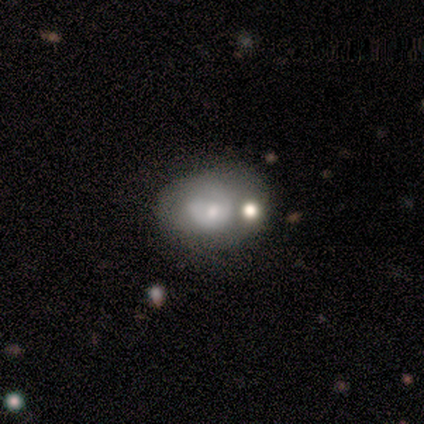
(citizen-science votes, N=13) Smooth or featured?
  - smooth: 46% * (tied)
  - featured or disk: 46% * (tied)
  - star or artifact: 8%
How rounded?
  - in between: 83% *
  - round: 17%
  - cigar-shaped: 0%
Merging?
  - none: 42% *
  - minor disturbance: 33%
  - merger: 25%
  - major disturbance: 0%